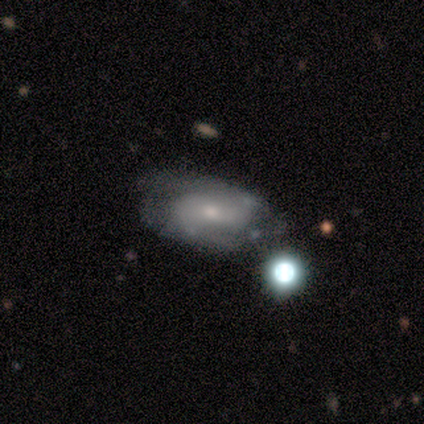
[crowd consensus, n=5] Overall: featured or disk (80%). Edge-on disk: no (100%). Bar: weak (75%). Spiral arms: yes (100%). Spiral arm count: 2 (100%). Spiral winding: medium (75%). Bulge size: small (100%). Merging: minor disturbance (60%; none 40%).